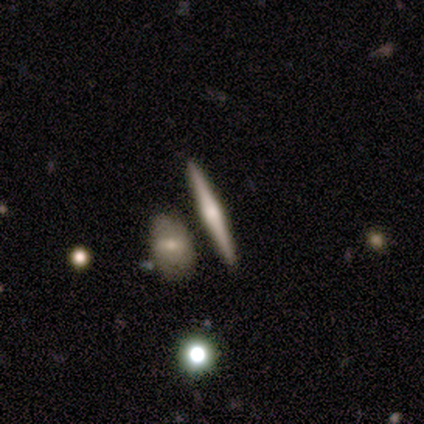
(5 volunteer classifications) smooth-or-featured: featured or disk: 60% | smooth: 40% | star or artifact: 0%
  disk-edge-on: yes: 100% | no: 0%
    edge-on-bulge: rounded: 100% | boxy: 0% | none: 0%
  merging: none: 80% | merger: 20% | minor disturbance: 0% | major disturbance: 0%